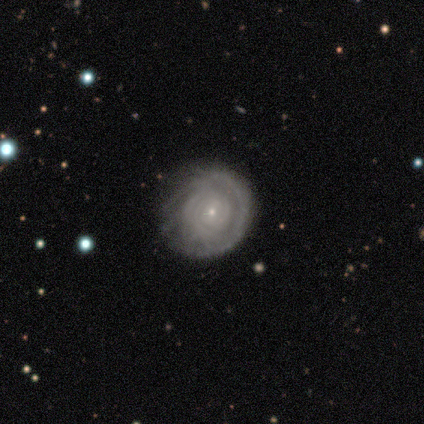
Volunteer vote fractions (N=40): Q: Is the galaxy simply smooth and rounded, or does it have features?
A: featured or disk — 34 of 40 (85%).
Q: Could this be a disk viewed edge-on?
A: no — 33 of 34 (97%).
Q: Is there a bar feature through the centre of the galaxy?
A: no — 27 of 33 (82%).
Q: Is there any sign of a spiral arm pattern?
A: yes — 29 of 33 (88%).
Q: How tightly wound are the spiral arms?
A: tight — 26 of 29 (90%).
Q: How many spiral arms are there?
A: can't tell — 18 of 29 (62%).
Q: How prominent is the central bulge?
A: small — 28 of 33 (85%).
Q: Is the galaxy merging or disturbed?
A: none — 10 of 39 (26%).